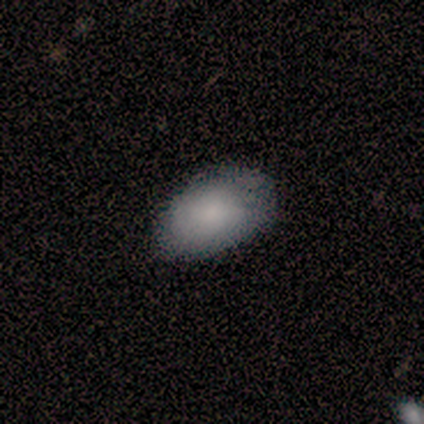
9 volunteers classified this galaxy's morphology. This appears to be a smooth galaxy with no disk features (100%) that is in between round and cigar-shaped (89%). Merging: none (78%).